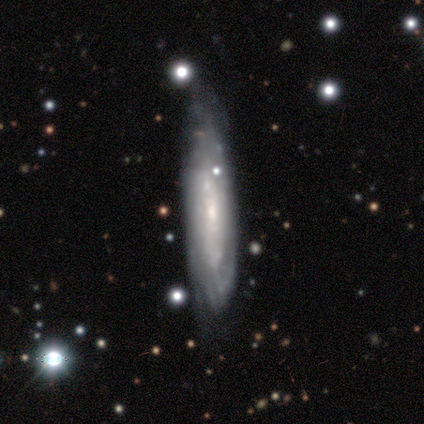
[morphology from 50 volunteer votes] smooth-or-featured: featured or disk: 76% | smooth: 24% | star or artifact: 0%
  disk-edge-on: no: 76% | yes: 24%
    bar: no: 69% | weak: 28% | strong: 3%
    has-spiral-arms: yes: 86% | no: 14%
      spiral-winding: tight: 88% | medium: 8% | loose: 4%
      spiral-arm-count: can't tell: 64% | 2: 16% | 1: 8% | more than 4: 8% | 3: 4% | 4: 0%
    bulge-size: small: 69% | moderate: 21% | none: 7% | large: 3% | dominant: 0%
  merging: none: 60% | minor disturbance: 30% | major disturbance: 6% | merger: 4%